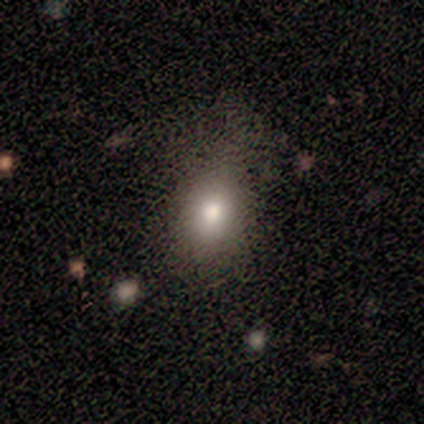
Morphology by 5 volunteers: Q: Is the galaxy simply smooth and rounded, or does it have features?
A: smooth — 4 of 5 (80%).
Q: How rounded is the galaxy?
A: in between — 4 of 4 (100%).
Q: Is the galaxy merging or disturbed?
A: none — 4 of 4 (100%).